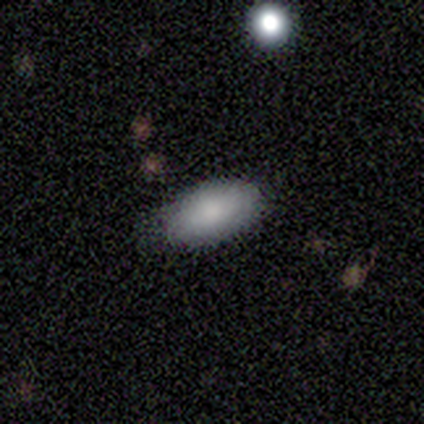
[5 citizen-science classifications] Morphology: type=smooth (80%); roundness=in between (100%); merging=minor disturbance (75%).